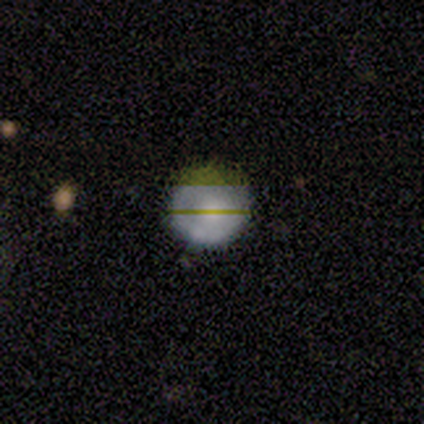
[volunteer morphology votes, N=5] A smooth galaxy with no disk features (80%) that is round (100%).

Vote fractions:
- Smooth or featured? smooth: 80% / star or artifact: 20% / featured or disk: 0%
- How rounded? round: 100% / in between: 0% / cigar-shaped: 0%
- Merging? none: 75% / major disturbance: 25% / minor disturbance: 0% / merger: 0%